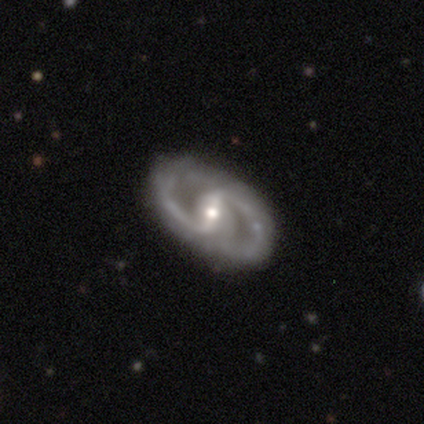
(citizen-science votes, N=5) A featured or disk galaxy (100%) with a strong bar (60%), 2 (100%) medium (60%) spiral arms (100%) and a small central bulge (60%). Merging: none (100%).